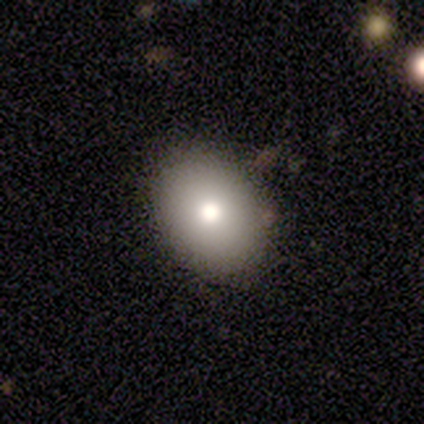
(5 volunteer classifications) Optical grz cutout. It shows a smooth galaxy with no disk features (60%) that is round (67%). Merging: none (100%).